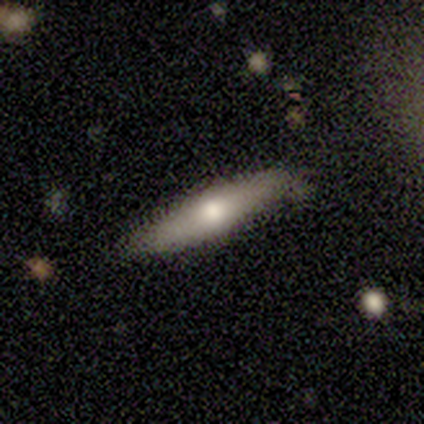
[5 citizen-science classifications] A smooth galaxy with no disk features (80%) that is cigar-shaped (75%).

Vote fractions:
- Smooth or featured? smooth: 80% / featured or disk: 20% / star or artifact: 0%
- How rounded? cigar-shaped: 75% / in between: 25% / round: 0%
- Merging? none: 80% / major disturbance: 20% / minor disturbance: 0% / merger: 0%